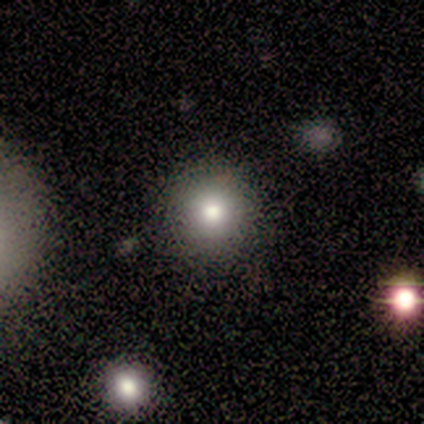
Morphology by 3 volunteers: smooth 100%, featured or disk 0%, star or artifact 0%. Down the decision tree: how rounded — round (100%); merging — none (100%).